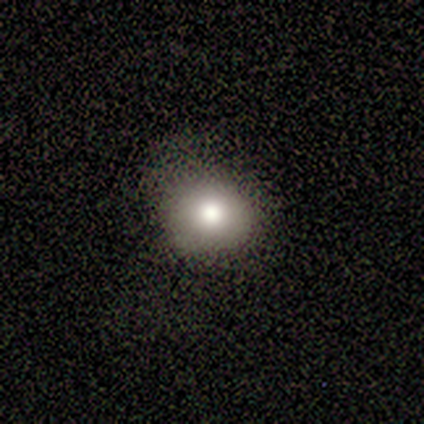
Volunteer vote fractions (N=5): This appears to be a smooth galaxy with no disk features (80%) that is round (50%, tied with in between). Merging: none (80%).